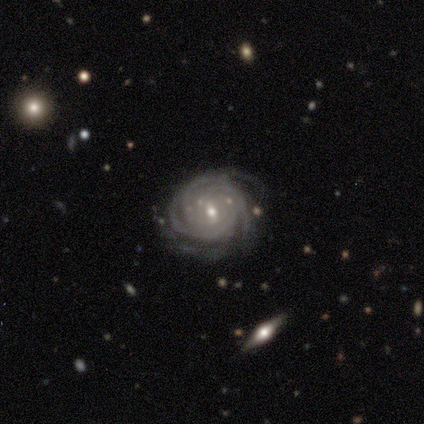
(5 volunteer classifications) Q: Smooth or featured?
A: featured or disk (100%)
Q: Edge-on disk?
A: no (100%)
Q: Bar?
A: weak (80%); runner-up: no (20%)
Q: Spiral arms?
A: yes (100%)
Q: Spiral winding?
A: tight (100%)
Q: Spiral arm count?
A: 3 (40%); tied with: can't tell (40%)
Q: Bulge size?
A: moderate (40%); tied with: small (40%)
Q: Merging?
A: none (80%); runner-up: minor disturbance (20%)